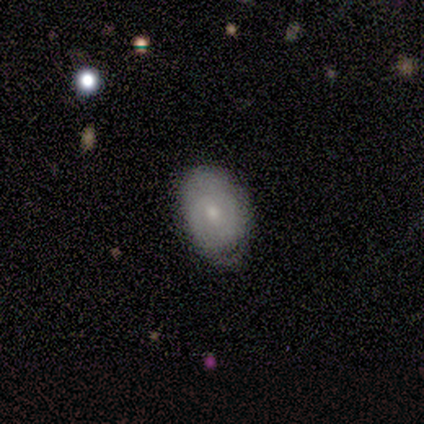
A smooth galaxy with no disk features (80%) that is in between round and cigar-shaped (100%).

Vote fractions:
- Smooth or featured? smooth: 80% / featured or disk: 20% / star or artifact: 0%
- How rounded? in between: 100% / round: 0% / cigar-shaped: 0%
- Merging? minor disturbance: 60% / none: 20% / major disturbance: 20% / merger: 0%